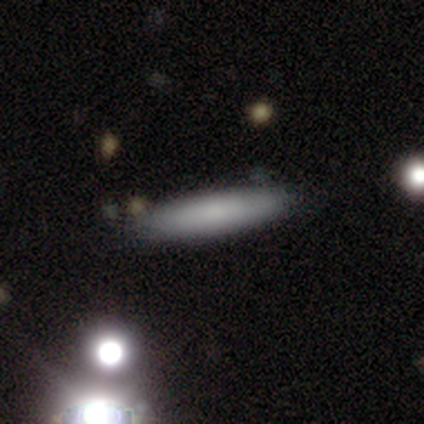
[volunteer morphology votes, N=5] Smooth or featured?
  - smooth: 100% *
  - featured or disk: 0%
  - star or artifact: 0%
How rounded?
  - cigar-shaped: 80% *
  - in between: 20%
  - round: 0%
Merging?
  - none: 100% *
  - minor disturbance: 0%
  - major disturbance: 0%
  - merger: 0%